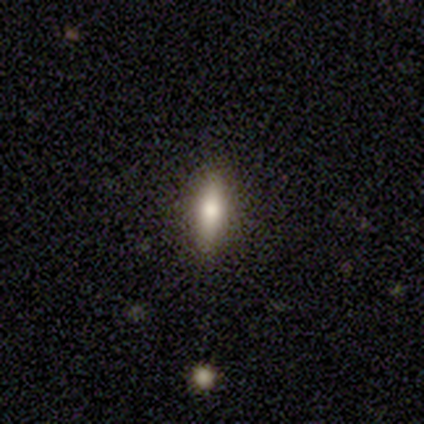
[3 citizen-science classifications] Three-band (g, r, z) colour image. It shows a smooth galaxy with no disk features (67%) that is cigar-shaped (100%). Merging: none (100%).